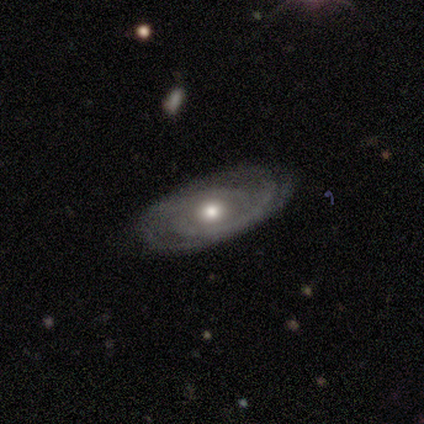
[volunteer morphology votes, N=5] This is likely a featured or disk galaxy (60%). It is clearly not viewed edge-on (100%). Bar: clearly no (100%). Spiral arm pattern: clearly yes (100%). Spiral arm count: marginally 2 (33%, tied with 3 and can't tell). Spiral winding: clearly tight (100%). Central bulge: likely moderate (67%). Merging: clearly none (100%).